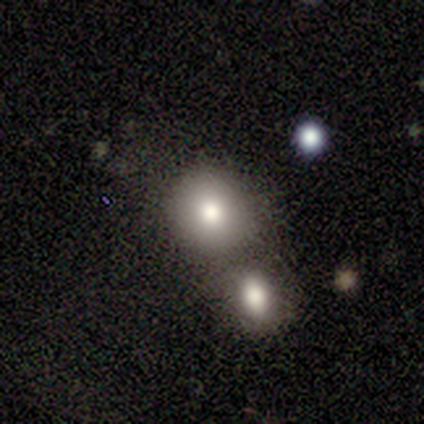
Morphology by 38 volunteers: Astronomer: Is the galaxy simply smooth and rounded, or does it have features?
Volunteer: smooth — 71%.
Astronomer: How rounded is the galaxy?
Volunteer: round — 89%.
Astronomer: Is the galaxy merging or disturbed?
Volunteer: none — 55% (runner-up: merger, 39%).